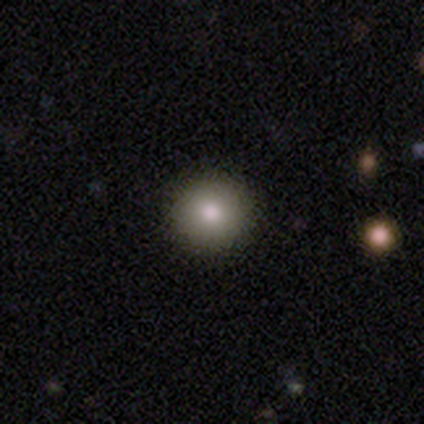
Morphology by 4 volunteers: Overall: smooth (100%). How rounded: round (100%). Merging: none (75%).